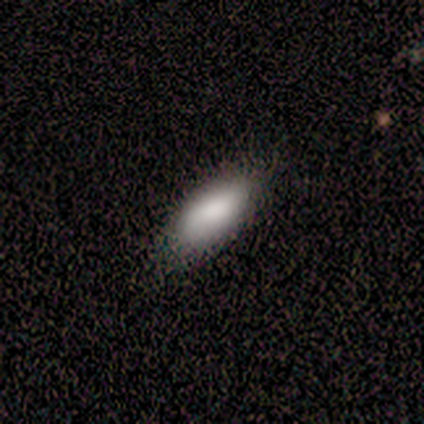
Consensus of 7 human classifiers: smooth 71%, star or artifact 29%, featured or disk 0%. Down the decision tree: how rounded — in between (80%); merging — none (80%).